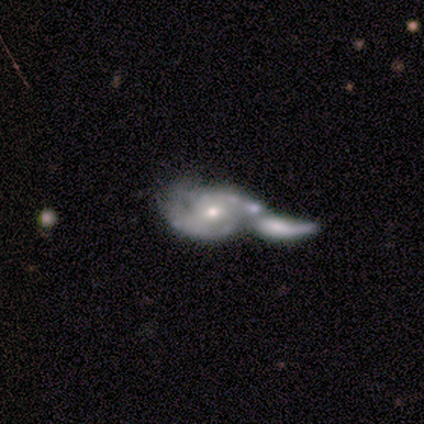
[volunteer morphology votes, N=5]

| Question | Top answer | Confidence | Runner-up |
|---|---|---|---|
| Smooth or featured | featured or disk | 80% | smooth (20%) |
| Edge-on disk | no | 75% | yes (25%) |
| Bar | no | 67% | weak (33%) |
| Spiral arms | no | 67% | yes (33%) |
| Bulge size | moderate | 67% | small (33%) |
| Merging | merger | 60% | major disturbance (40%) |